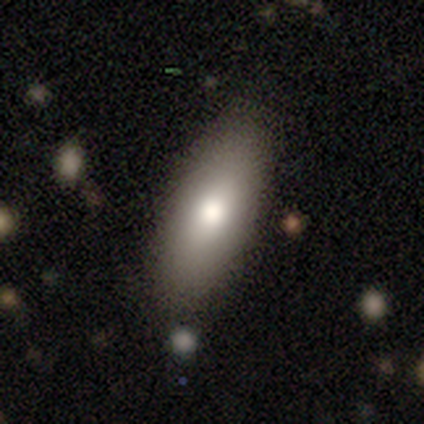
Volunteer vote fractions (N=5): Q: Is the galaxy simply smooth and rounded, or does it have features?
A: smooth — 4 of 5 (80%).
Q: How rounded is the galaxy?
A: in between — 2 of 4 (50%, tied with cigar-shaped).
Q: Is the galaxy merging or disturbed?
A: none — 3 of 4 (75%).